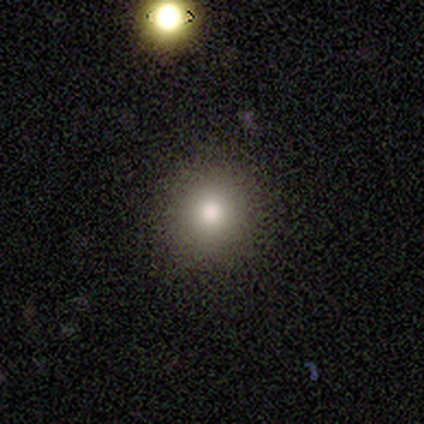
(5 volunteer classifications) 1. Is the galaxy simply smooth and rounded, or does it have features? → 80% smooth, 20% star or artifact, 0% featured or disk.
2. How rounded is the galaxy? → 75% round, 25% in between, 0% cigar-shaped.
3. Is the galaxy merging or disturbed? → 75% none, 25% minor disturbance, 0% major disturbance, 0% merger.